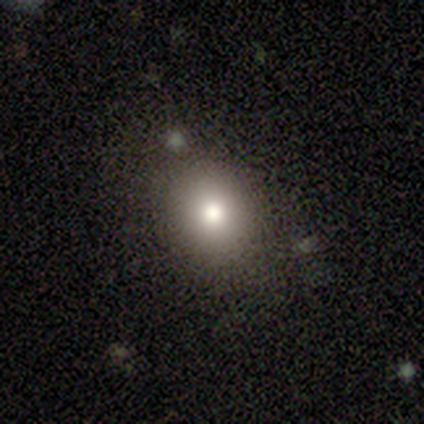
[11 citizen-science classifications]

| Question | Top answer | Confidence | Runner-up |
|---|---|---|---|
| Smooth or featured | smooth | 73% | star or artifact (27%) |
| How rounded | round | 75% | in between (25%) |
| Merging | none | 75% | minor disturbance (12%) |